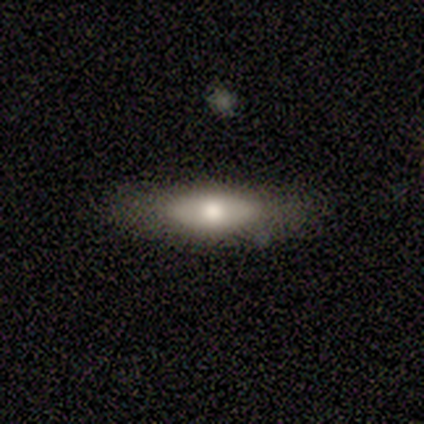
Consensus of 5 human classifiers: This appears to be a featured or disk galaxy (100%) viewed edge-on (60%) with a rounded central bulge (100%). Merging: none (100%).